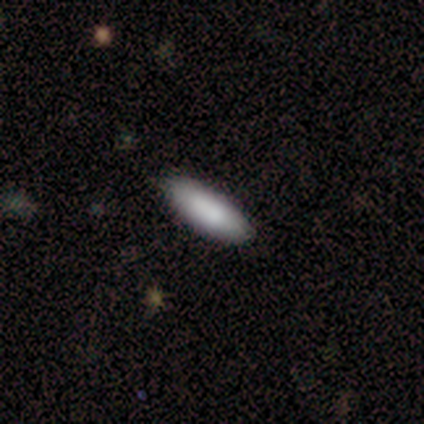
Volunteers were most divided on "how rounded" (2-way tie): in between: 50%, cigar-shaped: 50%, round: 0%. More confident: merging — none (92%); smooth or featured — smooth (87%).